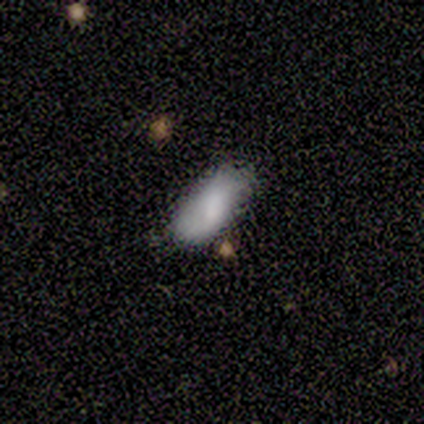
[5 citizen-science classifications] A smooth galaxy with no disk features (60%) that is in between round and cigar-shaped (100%). Merging: none (50%, tied with minor disturbance).